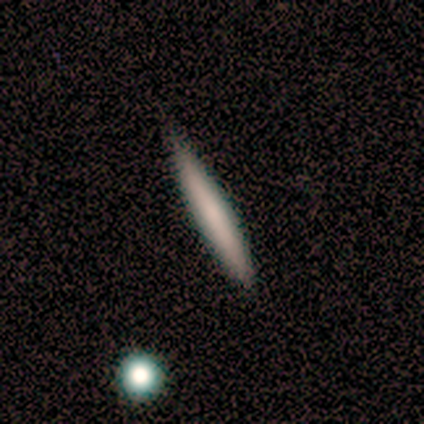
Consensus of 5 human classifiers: This appears to be a smooth galaxy with no disk features (80%) that is cigar-shaped (100%). Merging: none (80%).